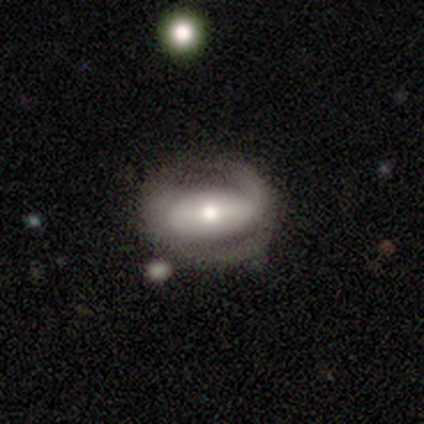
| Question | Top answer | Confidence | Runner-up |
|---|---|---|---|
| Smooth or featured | featured or disk | 53% | smooth (40%) |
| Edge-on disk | no | 100% | — |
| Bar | strong | 48% | no (33%) |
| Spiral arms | no | 61% | yes (39%) |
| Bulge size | moderate | 67% | small (18%) |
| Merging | none | 48% | major disturbance (26%) |